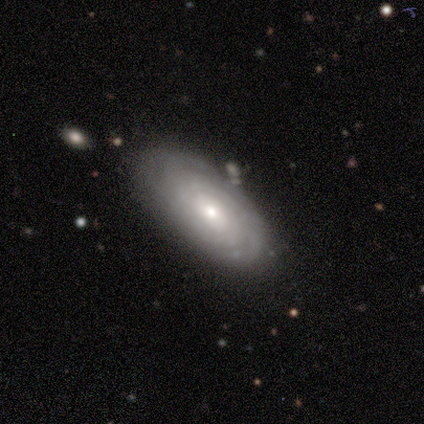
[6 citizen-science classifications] Overall: featured or disk (83%). Edge-on disk: no (100%). Bar: no (60%; weak 40%). Spiral arms: yes (80%). Spiral arm count: can't tell (75%). Spiral winding: tight (100%). Bulge size: small (80%). Merging: none (67%; minor disturbance 33%).